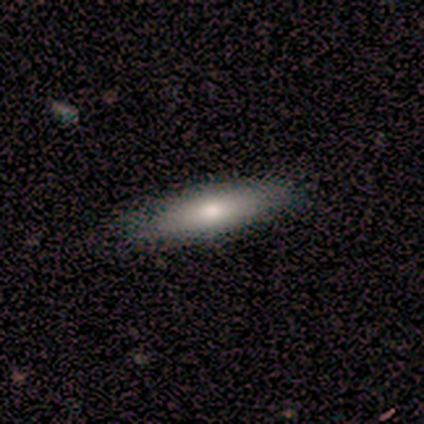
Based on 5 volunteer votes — smooth 60%, featured or disk 40%, star or artifact 0%. Down the decision tree: how rounded — in between (67%); merging — none (80%).